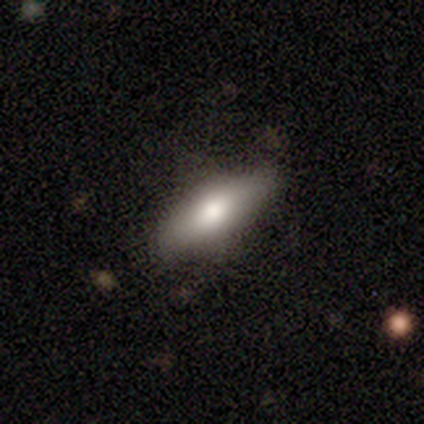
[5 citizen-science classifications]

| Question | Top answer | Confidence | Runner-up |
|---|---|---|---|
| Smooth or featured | smooth | 80% | star or artifact (20%) |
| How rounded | in between | 100% | — |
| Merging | none | 100% | — |